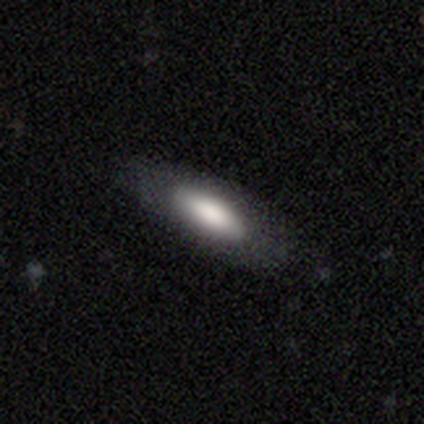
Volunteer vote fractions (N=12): smooth-or-featured: smooth: 67% | featured or disk: 33% | star or artifact: 0%
  how-rounded: in between: 88% | cigar-shaped: 12% | round: 0%
  merging: none: 83% | minor disturbance: 17% | major disturbance: 0% | merger: 0%